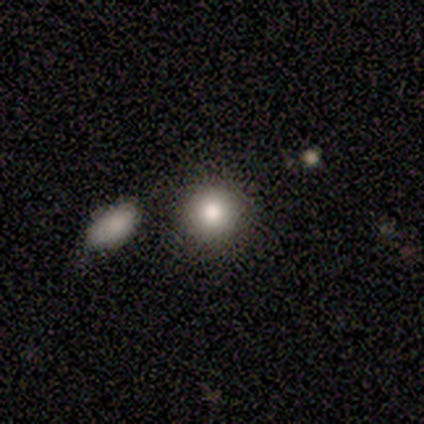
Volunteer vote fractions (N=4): Smooth or featured: smooth — 75% (featured or disk — 25%)
How rounded: round — 100%
Merging: none — 75% (minor disturbance — 25%)